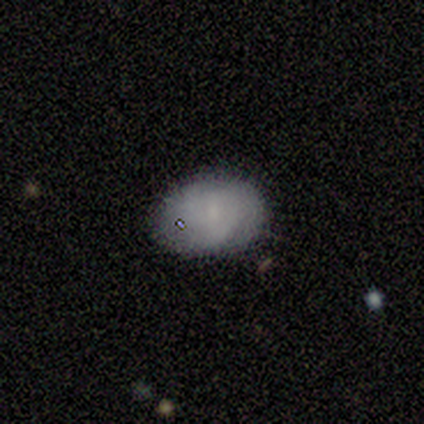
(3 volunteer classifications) Q: Smooth or featured?
A: smooth (67%); runner-up: featured or disk (33%)
Q: How rounded?
A: in between (100%)
Q: Merging?
A: none (67%); runner-up: minor disturbance (33%)